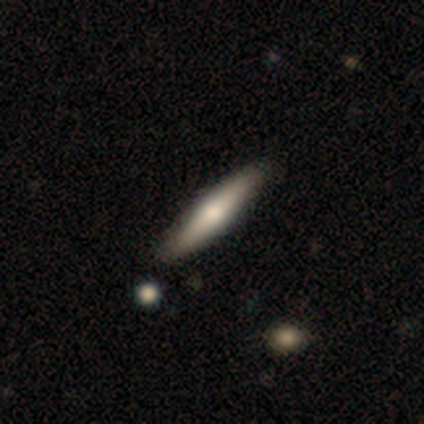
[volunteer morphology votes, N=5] A smooth galaxy with no disk features (60%) that is cigar-shaped (100%).

Vote fractions:
- Smooth or featured? smooth: 60% / featured or disk: 40% / star or artifact: 0%
- How rounded? cigar-shaped: 100% / round: 0% / in between: 0%
- Merging? none: 80% / minor disturbance: 20% / major disturbance: 0% / merger: 0%